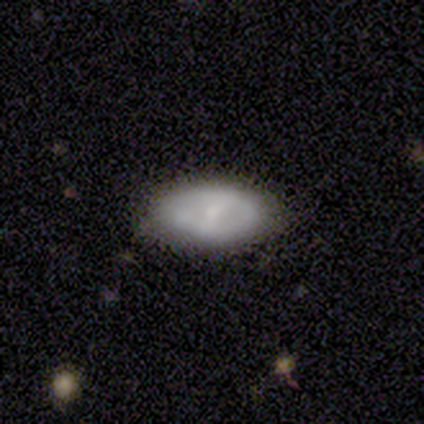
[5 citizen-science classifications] Smooth or featured? smooth (60%)
How rounded? in between (100%)
Merging? none (80%)